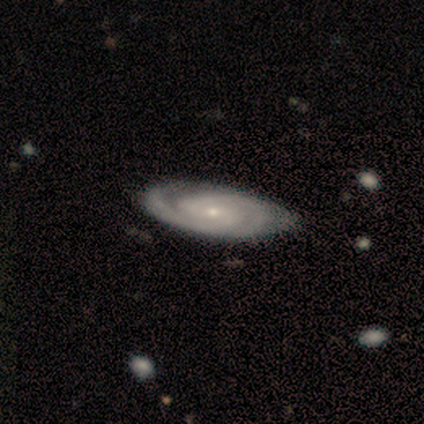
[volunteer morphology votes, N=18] smooth-or-featured: featured or disk: 89% | smooth: 6% | star or artifact: 6%
  disk-edge-on: no: 100% | yes: 0%
    bar: weak: 50% | no: 44% | strong: 6%
    has-spiral-arms: yes: 94% | no: 6%
      spiral-winding: medium: 53% | tight: 47% | loose: 0%
      spiral-arm-count: 2: 87% | 3: 7% | can't tell: 7% | 1: 0% | 4: 0% | more than 4: 0%
    bulge-size: small: 88% | dominant: 6% | moderate: 6% | large: 0% | none: 0%
  merging: none: 88% | minor disturbance: 12% | major disturbance: 0% | merger: 0%